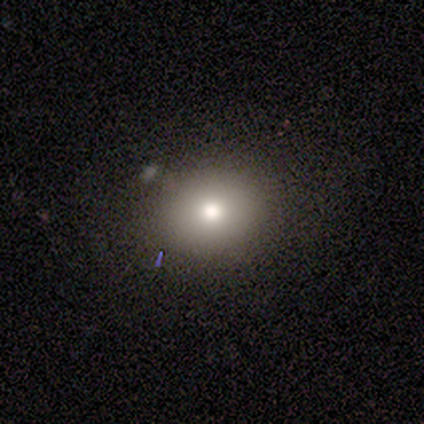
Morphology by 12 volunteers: type=smooth (75%); roundness=in between (56%); merging=none (89%).